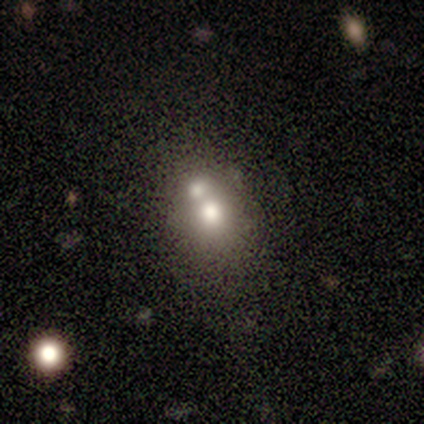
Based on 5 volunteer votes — smooth-or-featured: smooth: 60% | featured or disk: 40% | star or artifact: 0%
  how-rounded: in between: 100% | round: 0% | cigar-shaped: 0%
  merging: merger: 40% | none: 20% | minor disturbance: 20% | major disturbance: 20%